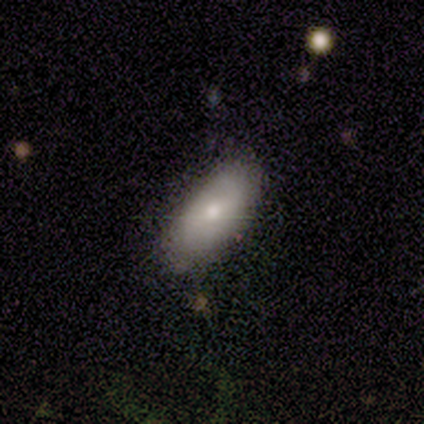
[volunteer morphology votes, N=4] Volunteers were most divided on "how rounded": in between: 67%, cigar-shaped: 33%, round: 0%. More confident: smooth or featured — smooth (75%); merging — none (75%).